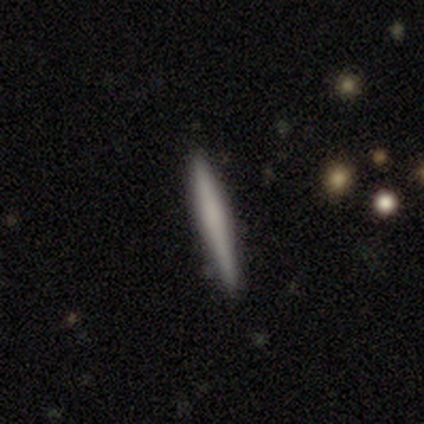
Volunteers were most divided on "smooth or featured" (2-way tie): smooth: 40%, featured or disk: 40%, star or artifact: 20%; "merging" (2-way tie): none: 50%, minor disturbance: 50%, major disturbance: 0%, merger: 0%. More confident: how rounded — cigar-shaped (100%).